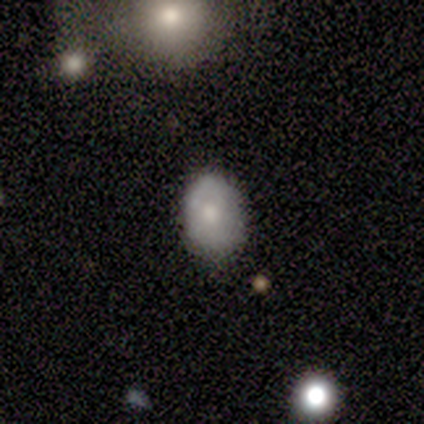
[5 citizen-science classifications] Smooth or featured? 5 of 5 (100%) said smooth. How rounded? 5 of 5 (100%) said in between. Merging? 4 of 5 (80%) said none.